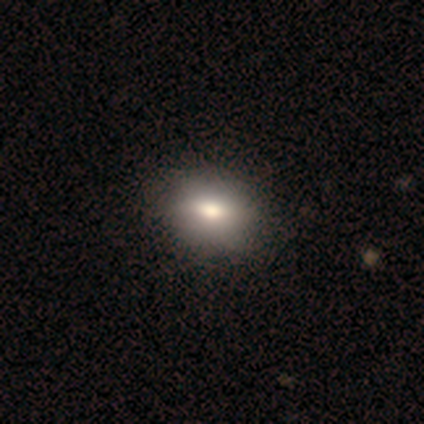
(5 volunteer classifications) Smooth or featured: smooth — 80% (star or artifact — 20%)
How rounded: in between — 75% (round — 25%)
Merging: none — 50% (tied with minor disturbance — 50%)